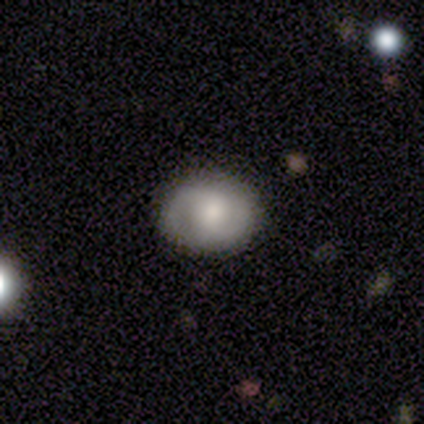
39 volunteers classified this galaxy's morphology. smooth_or_featured: featured or disk (p=0.51) [alt: smooth p=0.49]
disk_edge_on: no (p=0.90) [alt: yes p=0.10]
bar: no (p=0.61) [alt: weak p=0.33]
has_spiral_arms: yes (p=0.83) [alt: no p=0.17]
spiral_winding: medium (p=0.53) [alt: tight p=0.27]
spiral_arm_count: 2 (p=0.87) [alt: can't tell p=0.13]
bulge_size: moderate (p=0.56) [alt: large p=0.22]
merging: none (p=0.79) [alt: minor disturbance p=0.21]